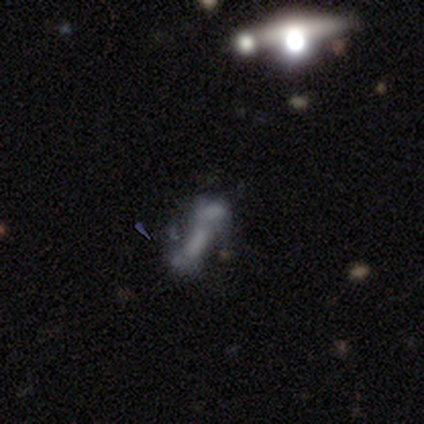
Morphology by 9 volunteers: A featured or disk galaxy (67%) with no bar (67%), no spiral arms (83%) and no central bulge (83%).

Vote fractions:
- Smooth or featured? featured or disk: 67% / smooth: 33% / star or artifact: 0%
- Edge-on disk? no: 100% / yes: 0%
- Bar? no: 67% / weak: 33% / strong: 0%
- Spiral arms? no: 83% / yes: 17%
- Bulge size? none: 83% / moderate: 17% / dominant: 0% / large: 0% / small: 0%
- Merging? none: 33% (tied) / major disturbance: 33% (tied) / minor disturbance: 22% / merger: 11%